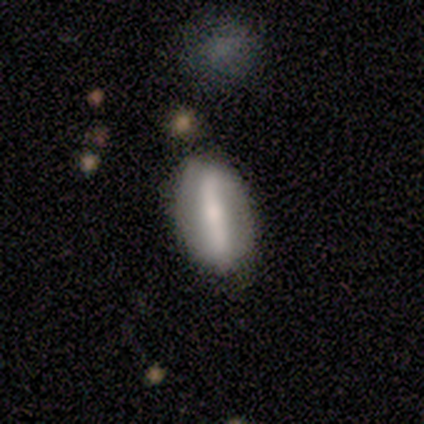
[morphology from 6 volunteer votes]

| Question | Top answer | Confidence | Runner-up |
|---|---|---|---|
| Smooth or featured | featured or disk | 67% | smooth (33%) |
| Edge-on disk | no | 75% | yes (25%) |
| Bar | strong | 100% | — |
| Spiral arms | no | 67% | yes (33%) |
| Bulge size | small | 100% | — |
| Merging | none | 83% | major disturbance (17%) |